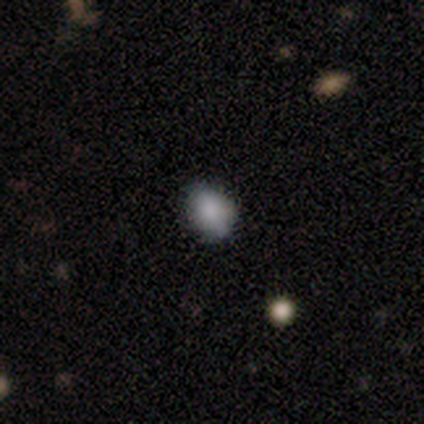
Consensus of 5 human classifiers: Morphology: type=smooth (80%); roundness=in between (75%); merging=none (100%).